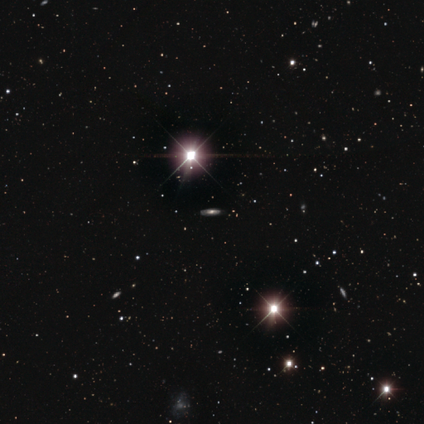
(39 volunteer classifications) A star or artifact, not a galaxy (56%).

Vote fractions:
- Smooth or featured? star or artifact: 56% / smooth: 23% / featured or disk: 21%